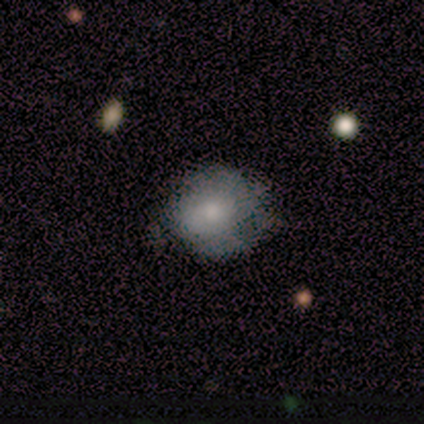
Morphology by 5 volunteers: A smooth galaxy with no disk features (80%) that is round (100%). Merging: none (80%).